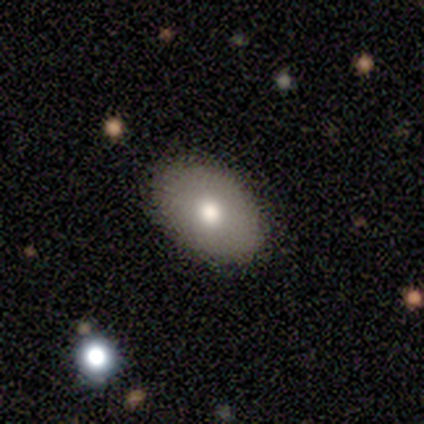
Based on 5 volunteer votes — smooth_or_featured: featured or disk (p=0.60) [alt: smooth p=0.40]
disk_edge_on: no (p=1.00)
bar: no (p=1.00)
has_spiral_arms: no (p=1.00)
bulge_size: moderate (p=0.67) [alt: small p=0.33]
merging: none (p=0.80) [alt: major disturbance p=0.20]